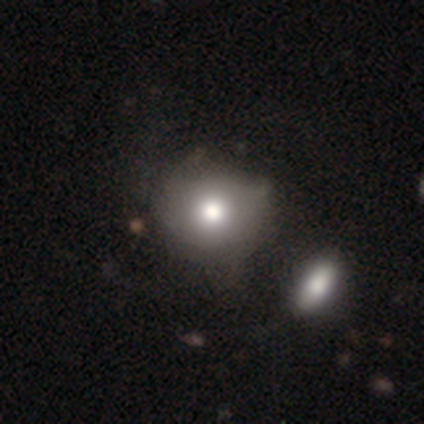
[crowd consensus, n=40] This is likely a smooth galaxy (78%). How rounded: clearly round (81%). Merging: possibly none (56%).